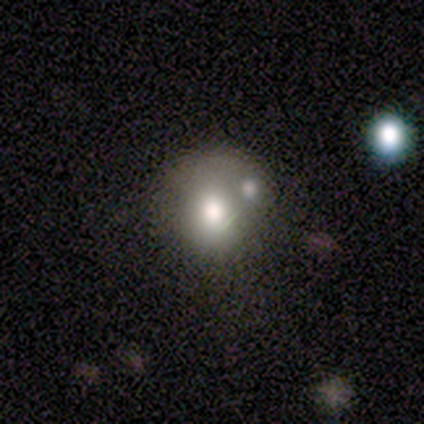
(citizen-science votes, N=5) Smooth or featured? 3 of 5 (60%) said smooth. How rounded? 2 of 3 (67%) said round. Merging? 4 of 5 (80%) said merger.